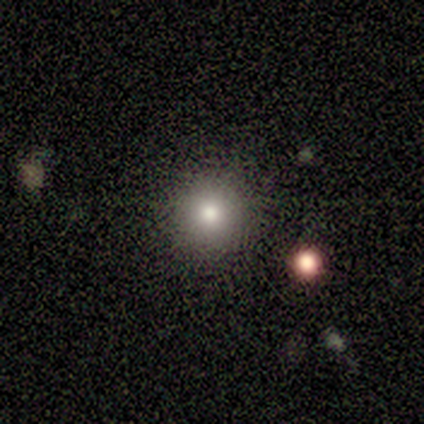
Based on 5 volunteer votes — smooth-or-featured: smooth: 80% | star or artifact: 20% | featured or disk: 0%
  how-rounded: round: 100% | in between: 0% | cigar-shaped: 0%
  merging: none: 100% | minor disturbance: 0% | major disturbance: 0% | merger: 0%